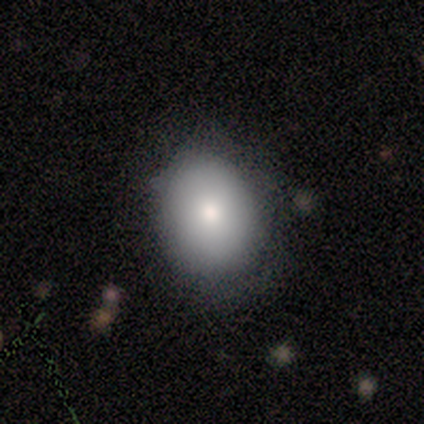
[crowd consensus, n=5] A smooth galaxy with no disk features (80%) that is round (100%). Merging: none (50%, tied with minor disturbance).